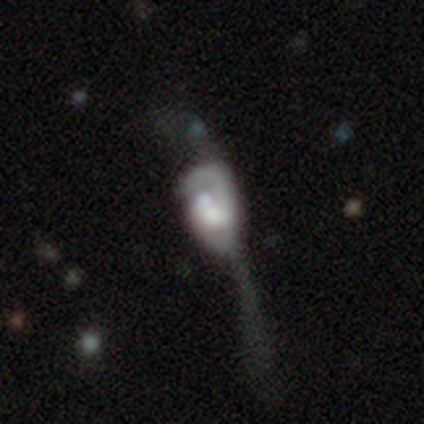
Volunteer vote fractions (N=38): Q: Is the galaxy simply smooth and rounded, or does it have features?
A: featured or disk — 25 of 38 (66%).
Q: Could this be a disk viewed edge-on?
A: no — 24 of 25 (96%).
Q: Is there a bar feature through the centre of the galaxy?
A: no — 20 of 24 (83%).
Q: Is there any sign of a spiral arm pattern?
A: yes — 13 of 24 (54%).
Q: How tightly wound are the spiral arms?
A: medium — 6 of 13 (46%).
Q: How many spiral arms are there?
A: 1 — 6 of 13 (46%, tied with 2).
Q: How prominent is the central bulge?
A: large — 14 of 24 (58%).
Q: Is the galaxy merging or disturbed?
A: major disturbance — 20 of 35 (57%).